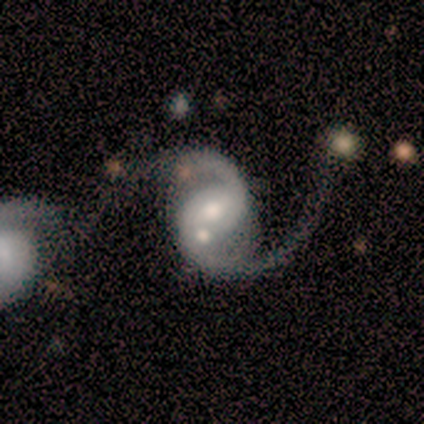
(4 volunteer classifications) Overall: featured or disk (100%). Edge-on disk: no (100%). Bar: weak (50%, tied with no). Spiral arms: yes (100%). Spiral arm count: 2 (75%). Spiral winding: medium (75%). Bulge size: moderate (75%). Merging: merger (75%).